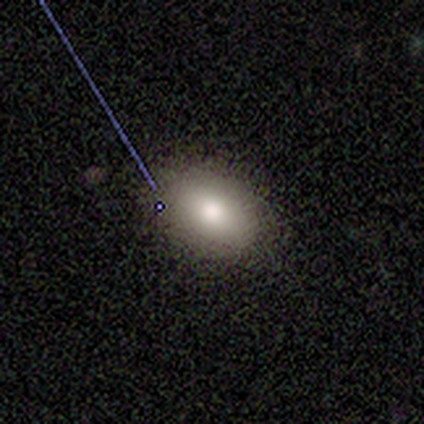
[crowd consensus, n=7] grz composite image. It shows a smooth galaxy with no disk features (86%) that is in between round and cigar-shaped (67%). Merging: none (100%).